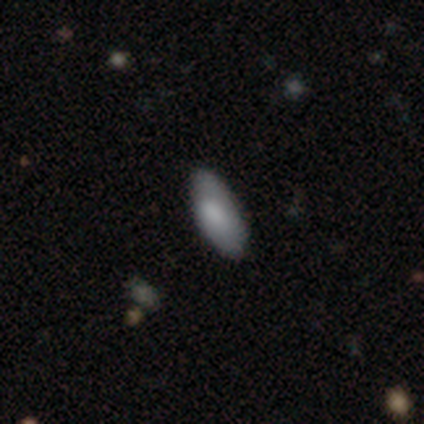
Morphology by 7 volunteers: A smooth galaxy with no disk features (100%) that is in between round and cigar-shaped (86%).

Vote fractions:
- Smooth or featured? smooth: 100% / featured or disk: 0% / star or artifact: 0%
- How rounded? in between: 86% / cigar-shaped: 14% / round: 0%
- Merging? none: 86% / major disturbance: 14% / minor disturbance: 0% / merger: 0%